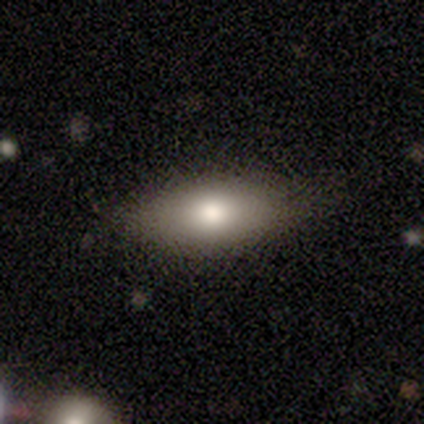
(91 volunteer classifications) Smooth or featured: smooth — 84% (featured or disk — 11%)
How rounded: in between — 88% (cigar-shaped — 11%)
Merging: none — 76% (minor disturbance — 24%)